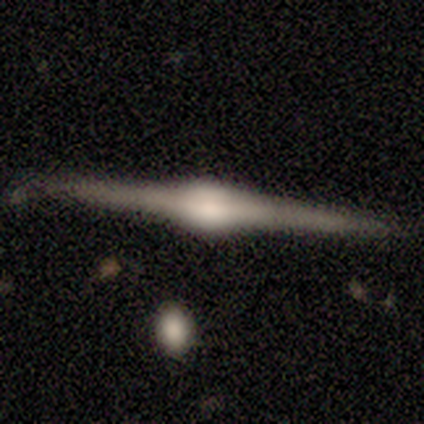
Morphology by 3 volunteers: smooth_or_featured: featured or disk (p=1.00)
disk_edge_on: yes (p=1.00)
edge_on_bulge: rounded (p=1.00)
merging: none (p=1.00)